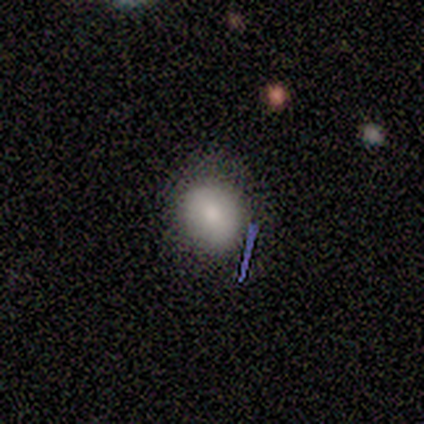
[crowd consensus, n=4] smooth-or-featured: smooth: 75% | featured or disk: 25% | star or artifact: 0%
  how-rounded: round: 100% | in between: 0% | cigar-shaped: 0%
  merging: none: 100% | minor disturbance: 0% | major disturbance: 0% | merger: 0%